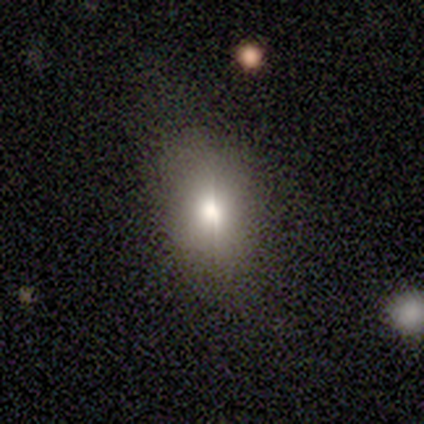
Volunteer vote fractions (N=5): Morphology: type=smooth (60%); roundness=round (67%); merging=none (67%).